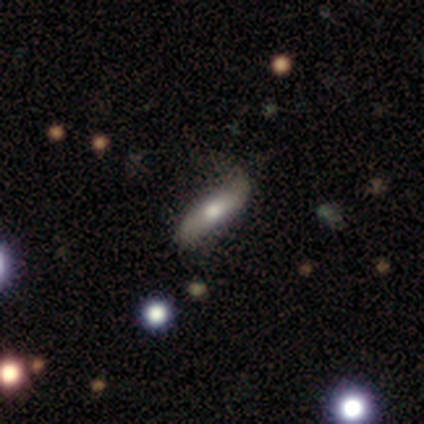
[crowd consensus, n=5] This is clearly a smooth galaxy (80%). How rounded: likely cigar-shaped (75%). Merging: likely none (60%).